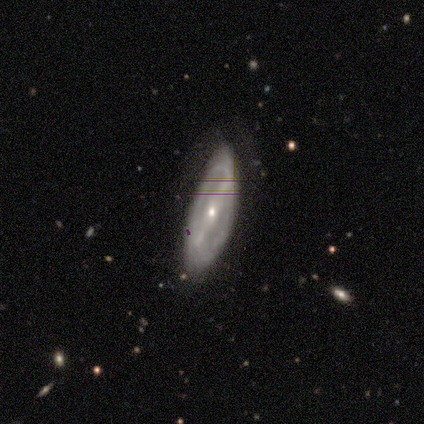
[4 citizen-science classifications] Volunteers were most divided on "merging": none: 50%, minor disturbance: 25%, major disturbance: 25%, merger: 0%. More confident: edge-on disk — no (100%); spiral arms — yes (100%); smooth or featured — featured or disk (75%); bar — strong (67%); spiral winding — tight (67%); spiral arm count — 2 (67%); bulge size — small (67%).